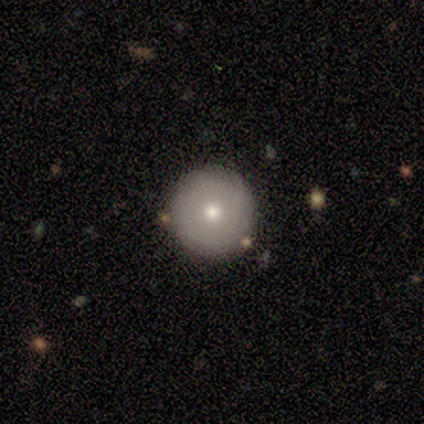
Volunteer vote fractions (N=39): Smooth or featured? 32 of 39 (82%) said smooth. How rounded? 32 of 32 (100%) said round. Merging? 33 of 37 (89%) said none.